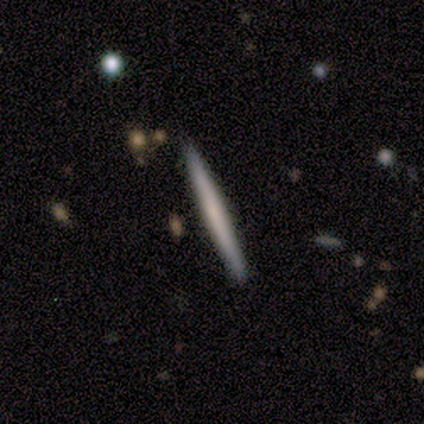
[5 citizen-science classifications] Smooth or featured?
  - smooth: 60% *
  - featured or disk: 40%
  - star or artifact: 0%
How rounded?
  - cigar-shaped: 100% *
  - round: 0%
  - in between: 0%
Merging?
  - none: 100% *
  - minor disturbance: 0%
  - major disturbance: 0%
  - merger: 0%